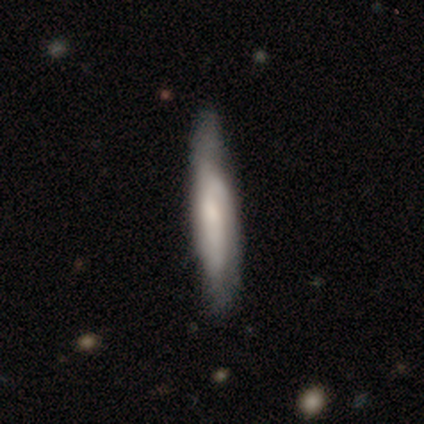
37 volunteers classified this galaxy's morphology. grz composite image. It shows a smooth galaxy with no disk features (70%) that is cigar-shaped (100%). Merging: none (70%).